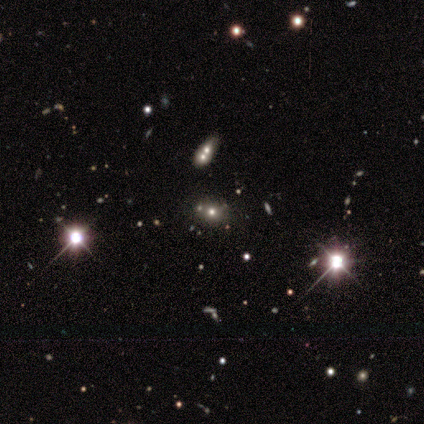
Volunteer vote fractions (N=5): A star or artifact, not a galaxy (80%).